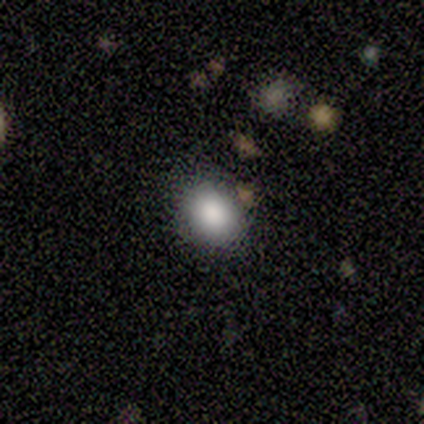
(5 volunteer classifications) A smooth galaxy with no disk features (80%) that is round (75%). Merging: none (100%).